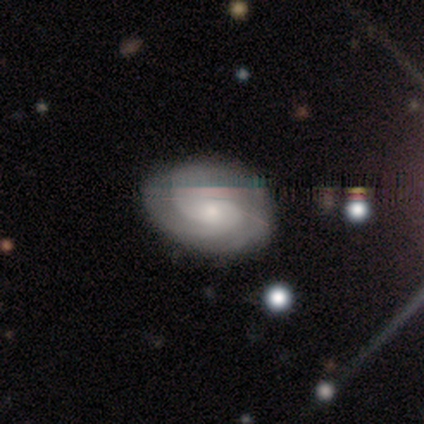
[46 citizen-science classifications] A featured or disk galaxy (74%) with no bar (76%), 2 (45%) tight (48%) spiral arms (100%) and a small central bulge (73%). Merging: none (79%).